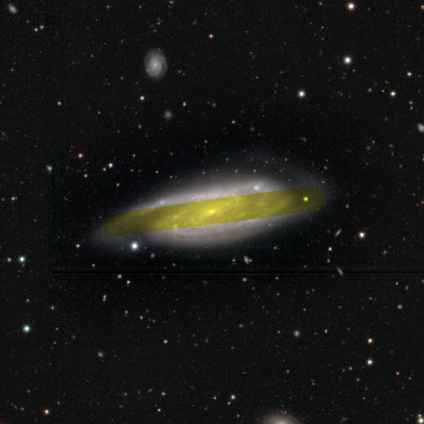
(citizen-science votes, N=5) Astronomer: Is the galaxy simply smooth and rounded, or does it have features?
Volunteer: featured or disk — 100%.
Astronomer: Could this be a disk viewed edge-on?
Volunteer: no — 80%.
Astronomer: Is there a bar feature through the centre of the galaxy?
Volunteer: no — 75%.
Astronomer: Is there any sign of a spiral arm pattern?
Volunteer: yes — 100%.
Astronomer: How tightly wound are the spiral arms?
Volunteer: tight — 100%.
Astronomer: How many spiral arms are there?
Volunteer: can't tell — 50%.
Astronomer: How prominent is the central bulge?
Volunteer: small — 100%.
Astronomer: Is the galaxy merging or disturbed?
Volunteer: none — 80%.